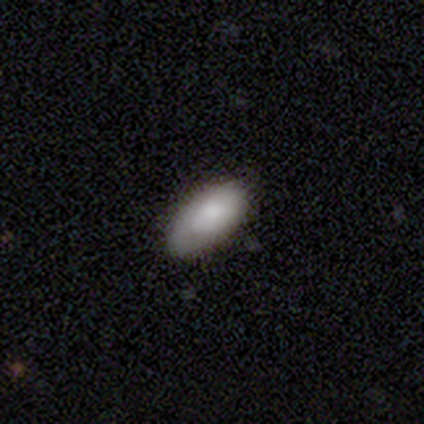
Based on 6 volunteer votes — A smooth galaxy with no disk features (83%) that is in between round and cigar-shaped (100%).

Vote fractions:
- Smooth or featured? smooth: 83% / star or artifact: 17% / featured or disk: 0%
- How rounded? in between: 100% / round: 0% / cigar-shaped: 0%
- Merging? none: 60% / minor disturbance: 40% / major disturbance: 0% / merger: 0%